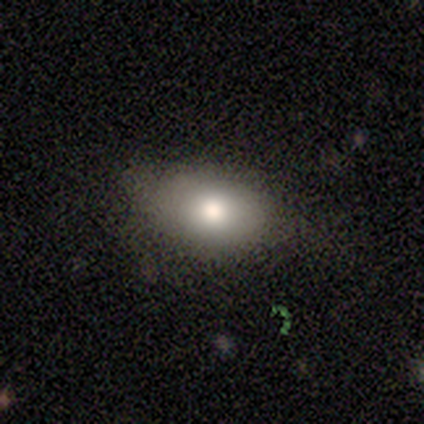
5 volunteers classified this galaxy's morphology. Smooth or featured? 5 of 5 (100%) said smooth. How rounded? 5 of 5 (100%) said in between. Merging? 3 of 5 (60%) said none.